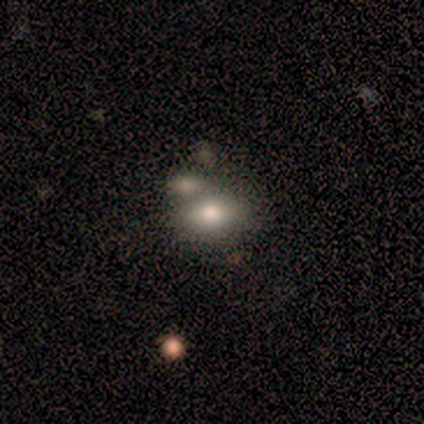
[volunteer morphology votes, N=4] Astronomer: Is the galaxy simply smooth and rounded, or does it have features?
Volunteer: smooth — 100%.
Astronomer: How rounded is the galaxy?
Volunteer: in between — 100%.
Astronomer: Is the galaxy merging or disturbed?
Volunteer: none — 100%.